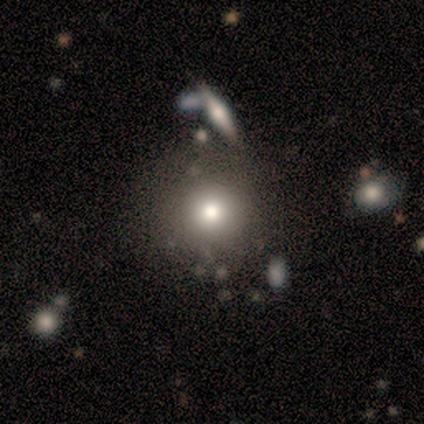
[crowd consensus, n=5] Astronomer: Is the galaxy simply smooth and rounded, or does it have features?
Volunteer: smooth — 80%.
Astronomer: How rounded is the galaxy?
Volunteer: round — 100%.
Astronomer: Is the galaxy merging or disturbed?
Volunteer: none — 80%.